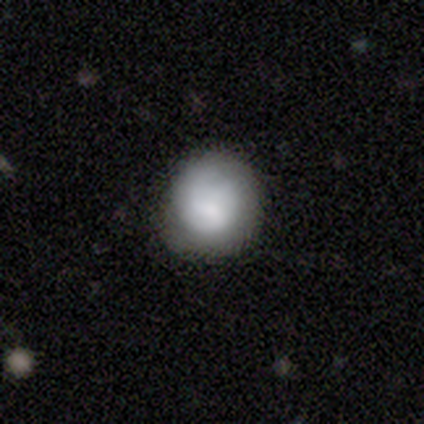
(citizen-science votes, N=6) A smooth galaxy with no disk features (50%, tied with featured or disk) that is round (100%).

Vote fractions:
- Smooth or featured? smooth: 50% (tied) / featured or disk: 50% (tied) / star or artifact: 0%
- How rounded? round: 100% / in between: 0% / cigar-shaped: 0%
- Merging? none: 83% / minor disturbance: 17% / major disturbance: 0% / merger: 0%